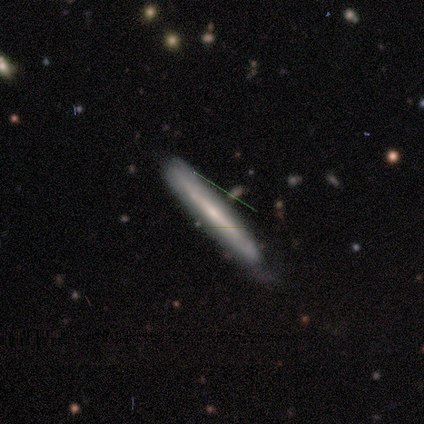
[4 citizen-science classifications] Q: Smooth or featured?
A: smooth (50%); tied with: star or artifact (50%)
Q: How rounded?
A: cigar-shaped (100%)
Q: Merging?
A: none (100%)